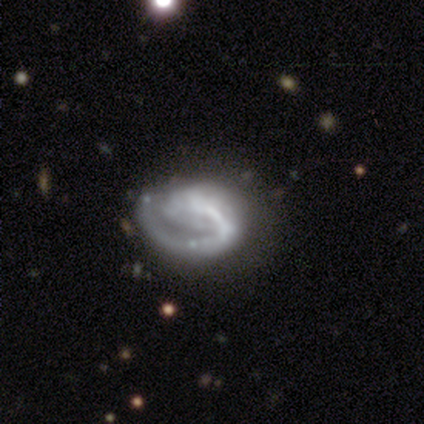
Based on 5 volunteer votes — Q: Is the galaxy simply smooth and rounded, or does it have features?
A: featured or disk — 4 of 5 (80%).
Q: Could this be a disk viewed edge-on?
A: no — 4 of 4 (100%).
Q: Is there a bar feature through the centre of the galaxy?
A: no — 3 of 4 (75%).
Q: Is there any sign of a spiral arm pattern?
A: yes — 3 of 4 (75%).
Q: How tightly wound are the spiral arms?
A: tight — 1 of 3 (33%, tied with medium and loose).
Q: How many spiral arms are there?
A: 1 — 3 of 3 (100%).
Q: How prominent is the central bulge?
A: none — 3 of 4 (75%).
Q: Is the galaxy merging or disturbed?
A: none — 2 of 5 (40%, tied with major disturbance).